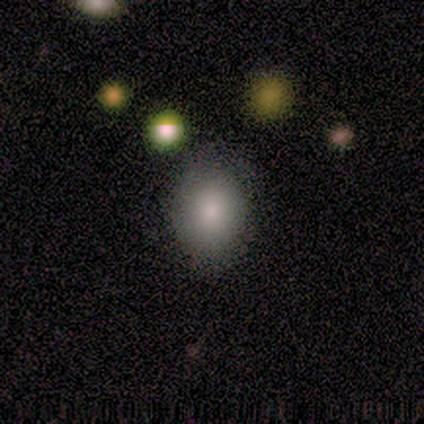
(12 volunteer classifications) Smooth or featured? 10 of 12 (83%) said smooth. How rounded? 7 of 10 (70%) said round. Merging? 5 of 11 (45%, tied with minor disturbance) said none.